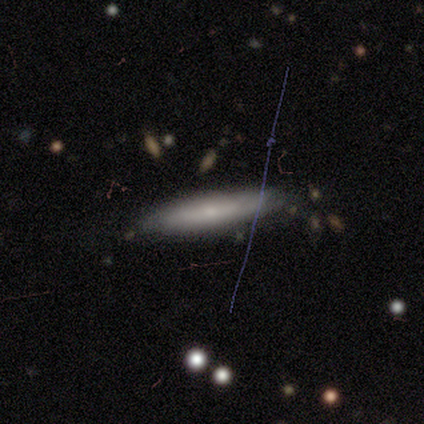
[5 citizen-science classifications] featured or disk 80%, smooth 20%, star or artifact 0%. Down the decision tree: edge-on disk — yes (50%, tied with no); edge-on bulge — none (100%); merging — none (80%).